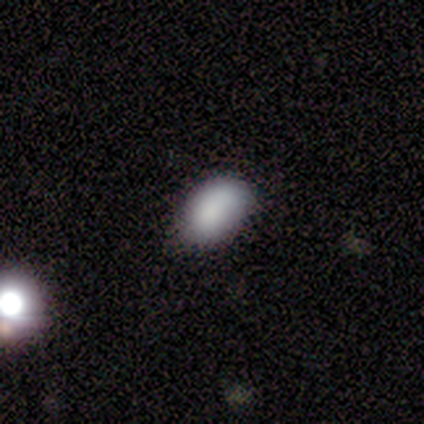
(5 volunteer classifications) Overall: smooth (80%). How rounded: in between (100%). Merging: none (75%).